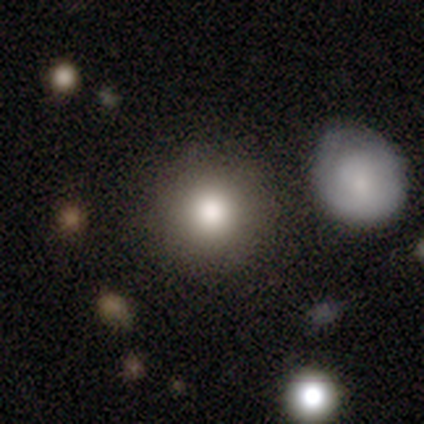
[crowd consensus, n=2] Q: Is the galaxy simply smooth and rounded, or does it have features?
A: smooth — 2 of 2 (100%).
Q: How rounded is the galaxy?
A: round — 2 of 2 (100%).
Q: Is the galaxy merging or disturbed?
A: none — 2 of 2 (100%).